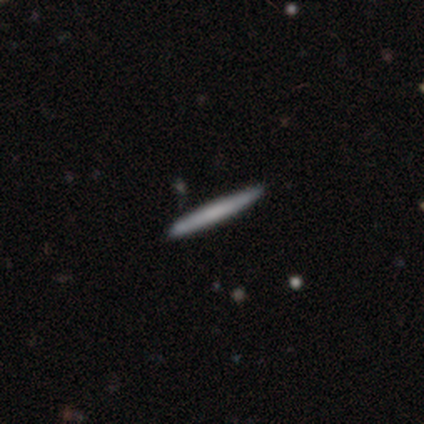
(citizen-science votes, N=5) Smooth or featured: featured or disk — 60% (smooth — 40%)
Edge-on disk: yes — 67% (no — 33%)
Edge-on bulge: none — 100%
Merging: none — 80% (minor disturbance — 20%)